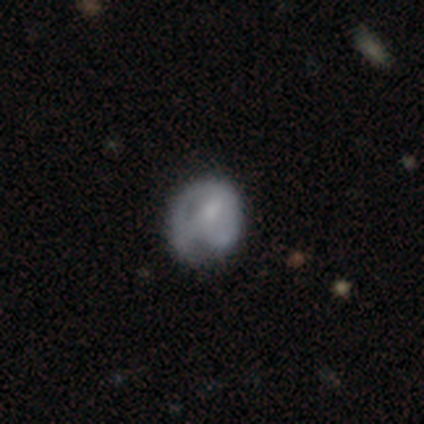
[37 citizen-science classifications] smooth_or_featured: smooth (p=0.49) [tied with: featured or disk p=0.49]
how_rounded: round (p=0.72) [alt: in between p=0.28]
merging: none (p=0.44) [alt: minor disturbance p=0.36]